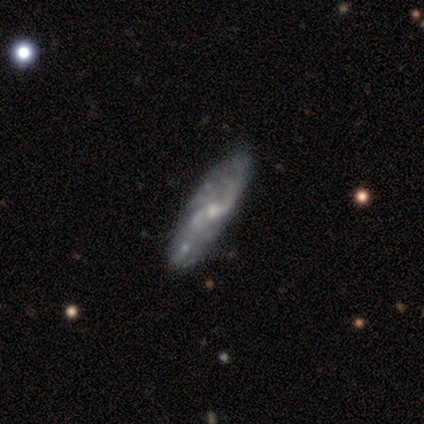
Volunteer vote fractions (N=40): Smooth or featured? featured or disk (92%)
Edge-on disk? no (97%)
Bar? no (44%)
Spiral arms? yes (81%)
Spiral winding? loose (48%)
Spiral arm count? 2 (59%)
Bulge size? small (53%)
Merging? none (57%)